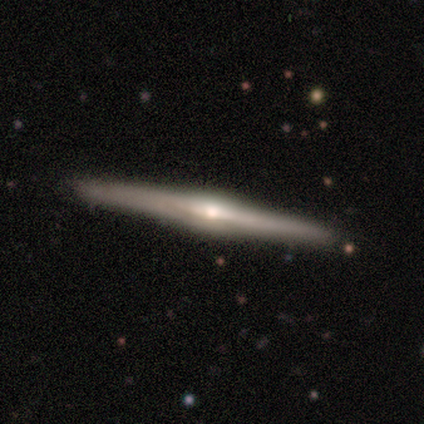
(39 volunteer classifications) smooth_or_featured: featured or disk (p=0.85) [alt: smooth p=0.13]
disk_edge_on: yes (p=1.00)
edge_on_bulge: rounded (p=0.91) [alt: boxy p=0.06]
merging: none (p=0.84) [alt: minor disturbance p=0.13]